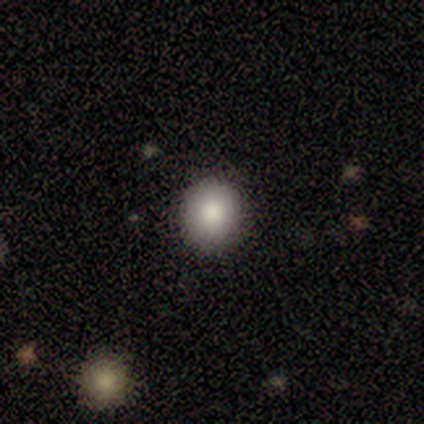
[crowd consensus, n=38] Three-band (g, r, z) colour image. It shows a smooth galaxy with no disk features (84%) that is round (81%). Merging: none (94%).